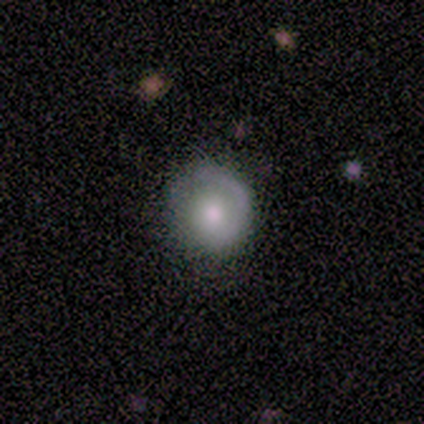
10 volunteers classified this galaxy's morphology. Overall: smooth (50%, tied with featured or disk). How rounded: round (100%). Merging: none (60%; minor disturbance 20%).